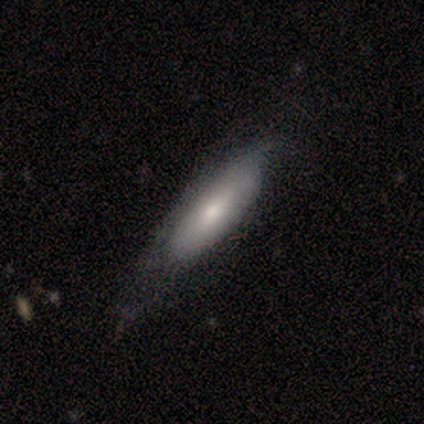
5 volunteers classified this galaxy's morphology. smooth-or-featured: smooth: 60% | featured or disk: 40% | star or artifact: 0%
  how-rounded: cigar-shaped: 100% | round: 0% | in between: 0%
  merging: none: 100% | minor disturbance: 0% | major disturbance: 0% | merger: 0%